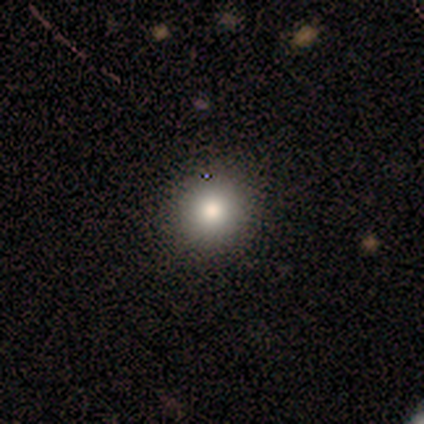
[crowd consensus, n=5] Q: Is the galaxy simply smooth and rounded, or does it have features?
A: smooth — 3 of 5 (60%).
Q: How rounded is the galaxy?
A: round — 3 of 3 (100%).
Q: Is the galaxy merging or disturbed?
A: none — 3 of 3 (100%).